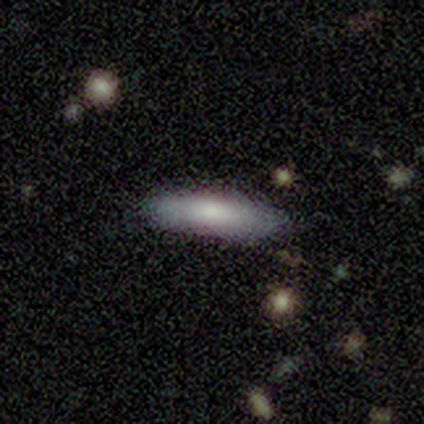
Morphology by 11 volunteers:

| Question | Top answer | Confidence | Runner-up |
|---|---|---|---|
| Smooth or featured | smooth | 91% | featured or disk (9%) |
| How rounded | cigar-shaped | 80% | in between (20%) |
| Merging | none | 91% | minor disturbance (9%) |